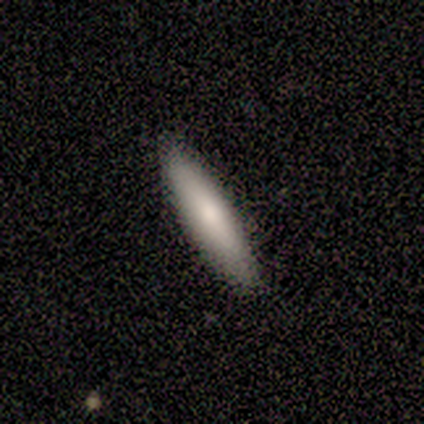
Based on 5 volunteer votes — A smooth galaxy with no disk features (80%) that is cigar-shaped (100%).

Vote fractions:
- Smooth or featured? smooth: 80% / featured or disk: 20% / star or artifact: 0%
- How rounded? cigar-shaped: 100% / round: 0% / in between: 0%
- Merging? none: 60% / minor disturbance: 20% / merger: 20% / major disturbance: 0%